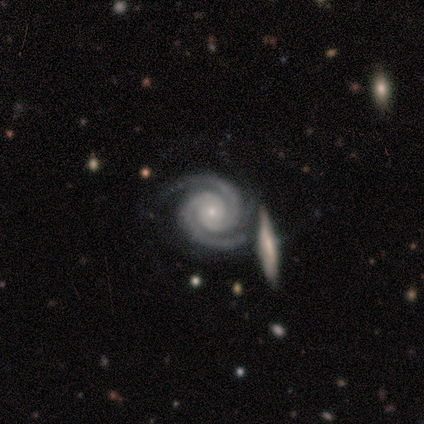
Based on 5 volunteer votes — Smooth or featured? featured or disk (100%)
Edge-on disk? no (100%)
Bar? no (80%)
Spiral arms? yes (100%)
Spiral winding? tight (100%)
Spiral arm count? 2 (100%)
Bulge size? small (100%)
Merging? none (60%)